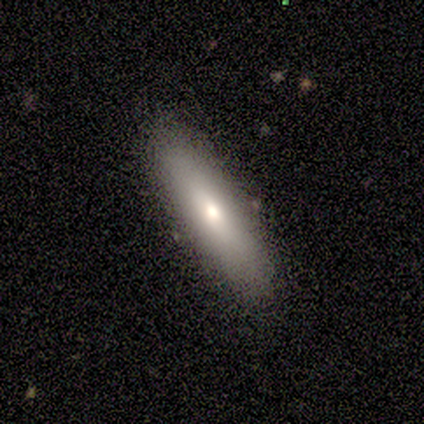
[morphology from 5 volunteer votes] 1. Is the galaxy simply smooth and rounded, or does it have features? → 80% smooth, 20% featured or disk, 0% star or artifact.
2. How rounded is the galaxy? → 100% cigar-shaped, 0% round, 0% in between.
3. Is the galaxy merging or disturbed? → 100% none, 0% minor disturbance, 0% major disturbance, 0% merger.